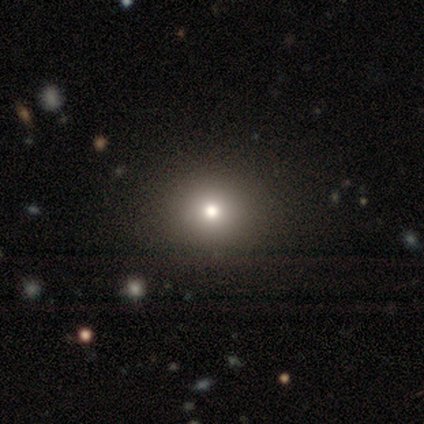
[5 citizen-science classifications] Volunteers were most divided on "smooth or featured" (2-way tie): smooth: 40%, featured or disk: 40%, star or artifact: 20%. More confident: how rounded — round (100%); merging — none (100%).